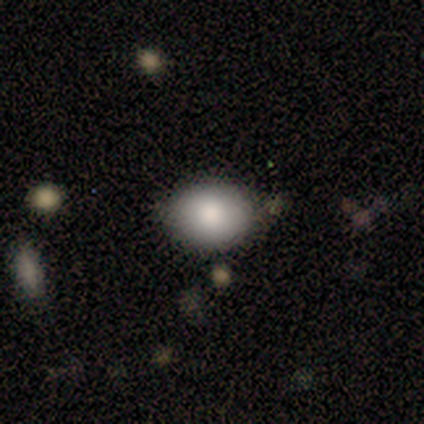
Smooth or featured? smooth (100%)
How rounded? round (50%, tied with in between)
Merging? none (50%, tied with minor disturbance)